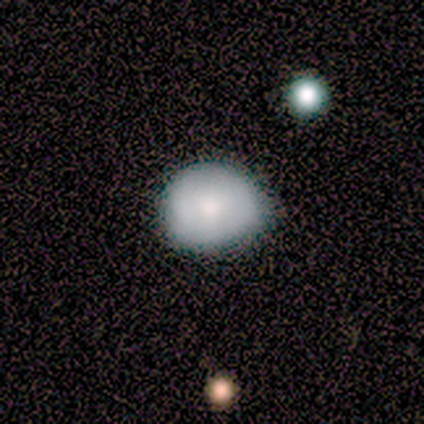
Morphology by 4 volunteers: Volunteers were most divided on "merging": none: 75%, minor disturbance: 25%, major disturbance: 0%, merger: 0%. More confident: smooth or featured — smooth (100%); how rounded — round (100%).